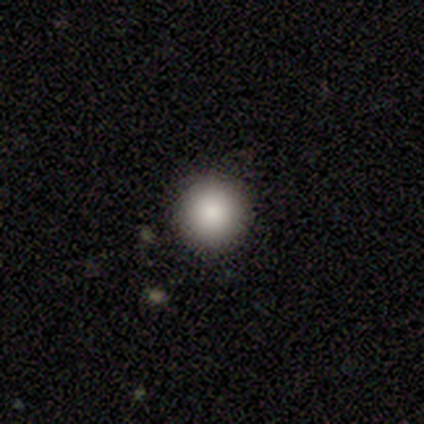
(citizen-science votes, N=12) smooth 75%, star or artifact 17%, featured or disk 8%. Down the decision tree: how rounded — round (100%); merging — none (90%).